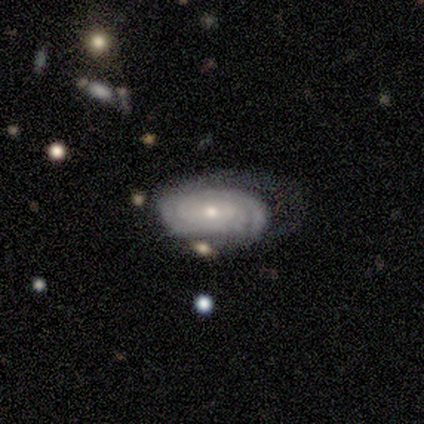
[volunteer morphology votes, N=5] This is clearly a featured or disk galaxy (80%). It is clearly not viewed edge-on (100%). Bar: possibly weak (50%, tied with no). Spiral arm pattern: clearly yes (100%). Spiral arm count: possibly can't tell (50%). Spiral winding: likely tight (75%). Central bulge: possibly moderate (50%, tied with small). Merging: marginally none (40%, tied with minor disturbance).